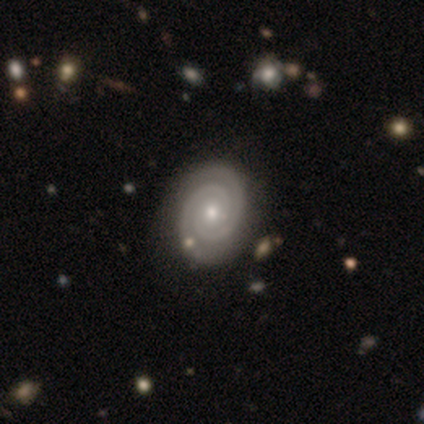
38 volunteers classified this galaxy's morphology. smooth_or_featured: featured or disk (p=0.92) [alt: smooth p=0.08]
disk_edge_on: no (p=1.00)
bar: no (p=0.71) [alt: weak p=0.29]
has_spiral_arms: yes (p=1.00)
spiral_winding: tight (p=0.97) [alt: loose p=0.03]
spiral_arm_count: 2 (p=1.00)
bulge_size: moderate (p=0.51) [alt: small p=0.46]
merging: none (p=0.63) [alt: minor disturbance p=0.05]